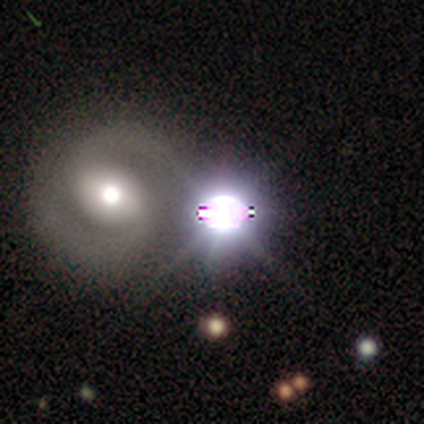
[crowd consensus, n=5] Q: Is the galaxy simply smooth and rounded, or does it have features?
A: star or artifact — 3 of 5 (60%).